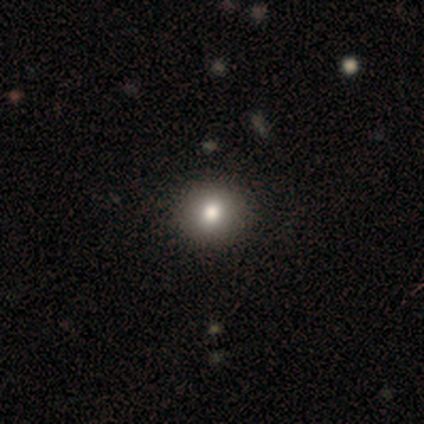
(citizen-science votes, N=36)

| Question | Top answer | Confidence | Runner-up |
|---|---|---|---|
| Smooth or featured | smooth | 67% | featured or disk (19%) |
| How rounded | round | 83% | in between (12%) |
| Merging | none | 87% | major disturbance (6%) |